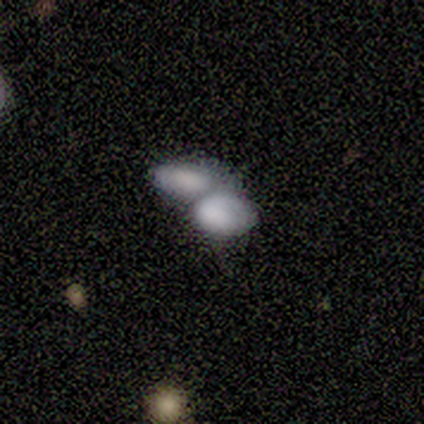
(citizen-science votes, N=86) Smooth or featured: smooth — 71% (featured or disk — 22%)
How rounded: in between — 85% (round — 11%)
Merging: merger — 88% (none — 8%)